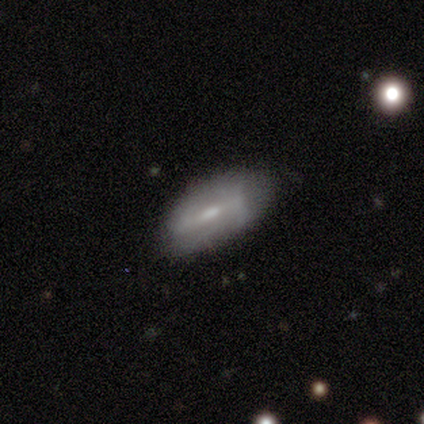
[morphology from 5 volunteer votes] Smooth or featured? featured or disk (60%)
Edge-on disk? no (100%)
Bar? strong (33%, tied with weak and no)
Spiral arms? no (100%)
Bulge size? moderate (100%)
Merging? none (60%)